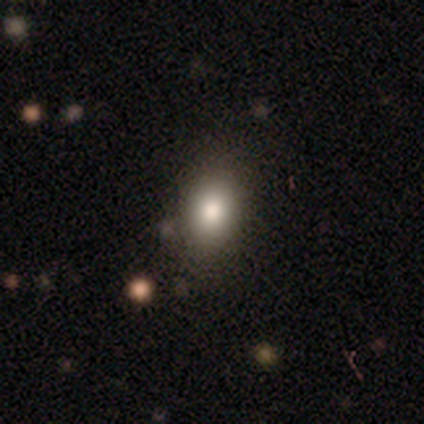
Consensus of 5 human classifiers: smooth-or-featured: smooth: 100% | featured or disk: 0% | star or artifact: 0%
  how-rounded: in between: 60% | round: 40% | cigar-shaped: 0%
  merging: none: 100% | minor disturbance: 0% | major disturbance: 0% | merger: 0%